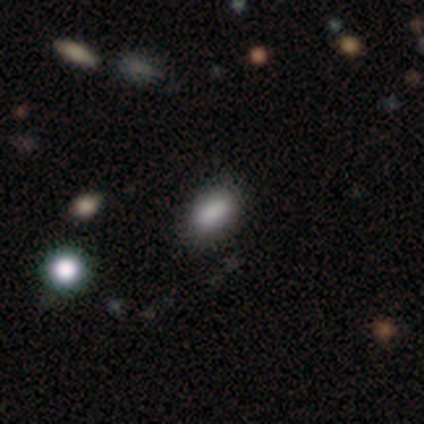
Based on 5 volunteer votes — smooth 80%, featured or disk 20%, star or artifact 0%. Down the decision tree: how rounded — in between (75%); merging — none (80%).